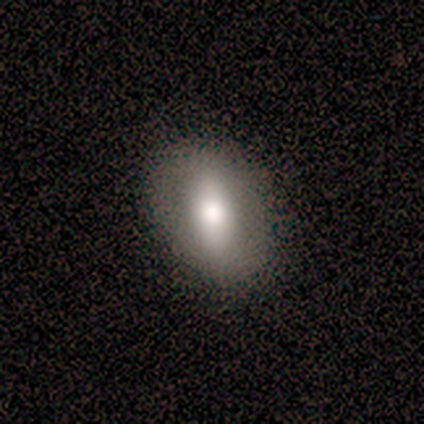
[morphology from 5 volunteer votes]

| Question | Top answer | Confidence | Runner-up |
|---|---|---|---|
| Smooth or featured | smooth | 80% | featured or disk (20%) |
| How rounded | in between | 75% | round (25%) |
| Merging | none | 80% | minor disturbance (20%) |